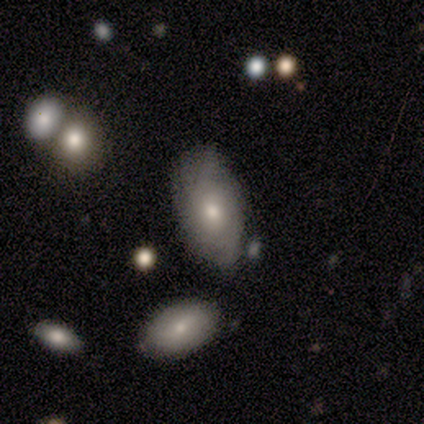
A smooth galaxy with no disk features (57%) that is in between round and cigar-shaped (100%). Merging: none (57%).